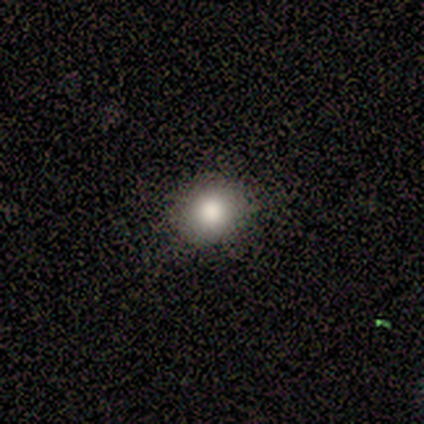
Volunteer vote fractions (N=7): A smooth galaxy with no disk features (100%) that is round (86%).

Vote fractions:
- Smooth or featured? smooth: 100% / featured or disk: 0% / star or artifact: 0%
- How rounded? round: 86% / in between: 14% / cigar-shaped: 0%
- Merging? none: 100% / minor disturbance: 0% / major disturbance: 0% / merger: 0%